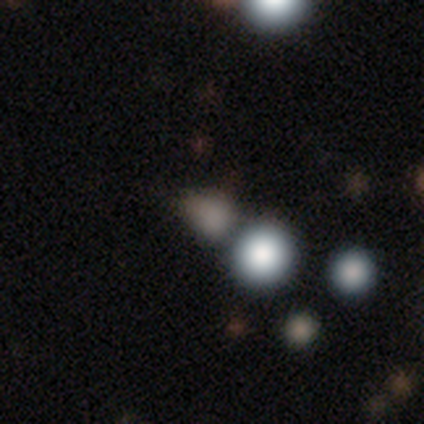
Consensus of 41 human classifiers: Volunteers were most divided on "how rounded": round: 64%, in between: 36%, cigar-shaped: 0%. More confident: smooth or featured — smooth (61%); merging — none (58%).